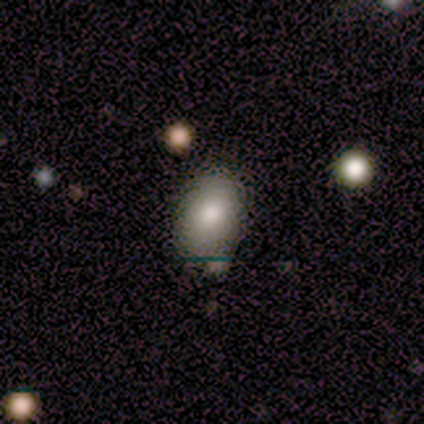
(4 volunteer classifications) A smooth galaxy with no disk features (75%) that is in between round and cigar-shaped (100%).

Vote fractions:
- Smooth or featured? smooth: 75% / featured or disk: 25% / star or artifact: 0%
- How rounded? in between: 100% / round: 0% / cigar-shaped: 0%
- Merging? none: 75% / minor disturbance: 25% / major disturbance: 0% / merger: 0%